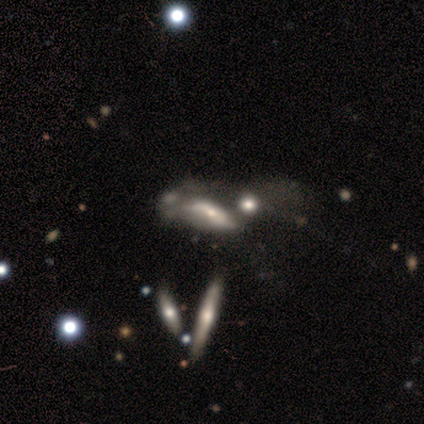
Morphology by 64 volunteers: Smooth or featured: featured or disk — 69% (smooth — 28%)
Edge-on disk: no — 70% (yes — 30%)
Bar: no — 45% (strong — 29%)
Spiral arms: yes — 55% (no — 45%)
Spiral winding: loose — 88% (tight — 12%)
Spiral arm count: 2 — 53% (can't tell — 47%)
Bulge size: moderate — 52% (small — 26%)
Merging: merger — 66% (none — 16%)